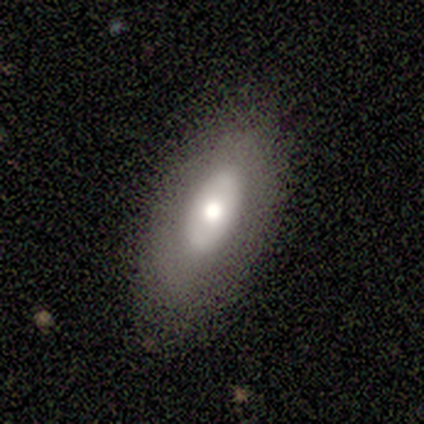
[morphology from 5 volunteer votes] Smooth or featured? 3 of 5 (60%) said featured or disk. Edge-on disk? 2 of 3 (67%) said no. Bar? 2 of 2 (100%) said no. Spiral arms? 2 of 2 (100%) said no. Bulge size? 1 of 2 (50%, tied with small) said moderate. Merging? 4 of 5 (80%) said none.